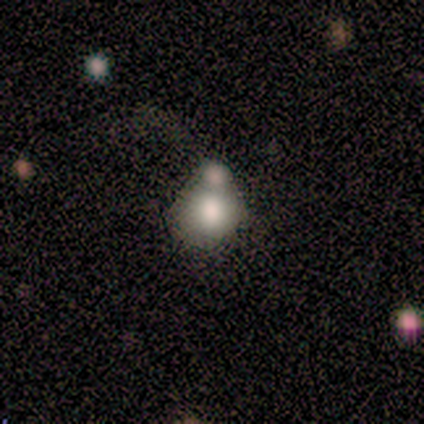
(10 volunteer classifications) A smooth galaxy with no disk features (90%) that is round (56%). Merging: merger (67%).